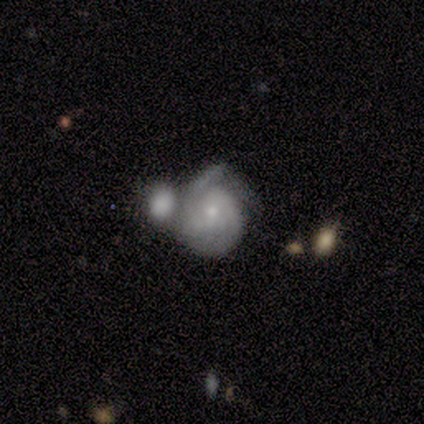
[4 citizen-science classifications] A featured or disk galaxy (75%) with no bar (67%), 2 (67%) tight (67%) spiral arms (100%) and a small central bulge (100%).

Vote fractions:
- Smooth or featured? featured or disk: 75% / smooth: 25% / star or artifact: 0%
- Edge-on disk? no: 100% / yes: 0%
- Bar? no: 67% / weak: 33% / strong: 0%
- Spiral arms? yes: 100% / no: 0%
- Spiral winding? tight: 67% / medium: 33% / loose: 0%
- Spiral arm count? 2: 67% / can't tell: 33% / 1: 0% / 3: 0% / 4: 0% / more than 4: 0%
- Bulge size? small: 100% / dominant: 0% / large: 0% / moderate: 0% / none: 0%
- Merging? minor disturbance: 50% (tied) / merger: 50% (tied) / none: 0% / major disturbance: 0%